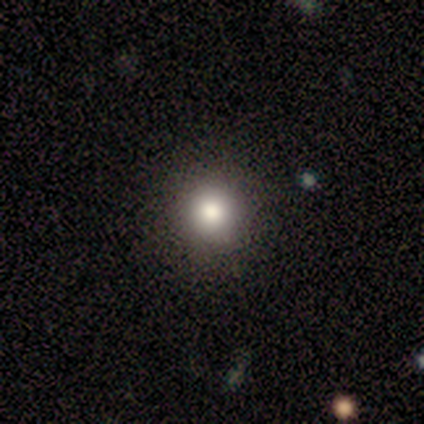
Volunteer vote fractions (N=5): smooth_or_featured: smooth (p=0.80) [alt: star or artifact p=0.20]
how_rounded: round (p=1.00)
merging: none (p=1.00)